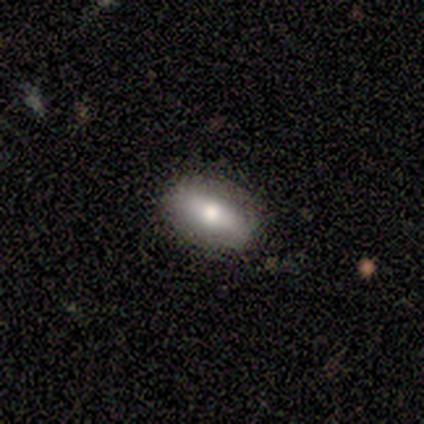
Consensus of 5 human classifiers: smooth-or-featured: smooth: 80% | featured or disk: 20% | star or artifact: 0%
  how-rounded: in between: 75% | cigar-shaped: 25% | round: 0%
  merging: none: 80% | minor disturbance: 20% | major disturbance: 0% | merger: 0%